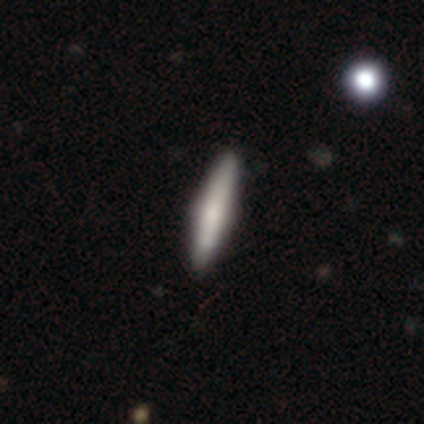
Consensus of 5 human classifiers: A smooth galaxy with no disk features (100%) that is cigar-shaped (80%). Merging: none (80%).